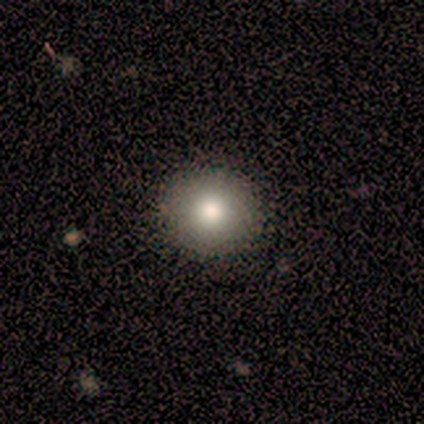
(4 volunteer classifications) A smooth galaxy with no disk features (75%) that is round (100%). Merging: none (100%).